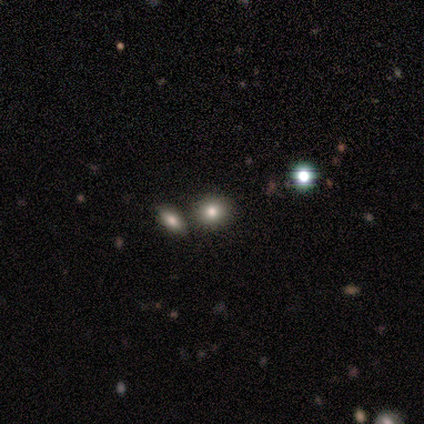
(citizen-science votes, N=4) Volunteers were most divided on "smooth or featured" (2-way tie): smooth: 50%, star or artifact: 50%, featured or disk: 0%; "how rounded" (2-way tie): round: 50%, in between: 50%, cigar-shaped: 0%. More confident: merging — none (100%).